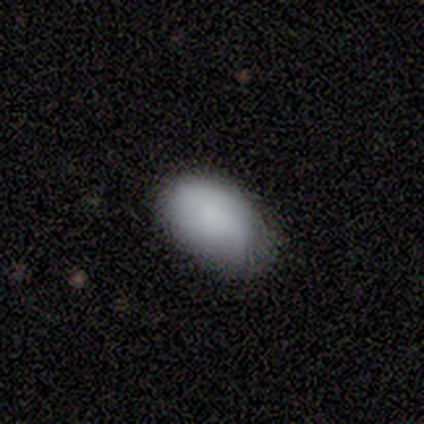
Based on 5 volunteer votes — smooth_or_featured: smooth (p=1.00)
how_rounded: in between (p=1.00)
merging: none (p=0.80) [alt: minor disturbance p=0.20]